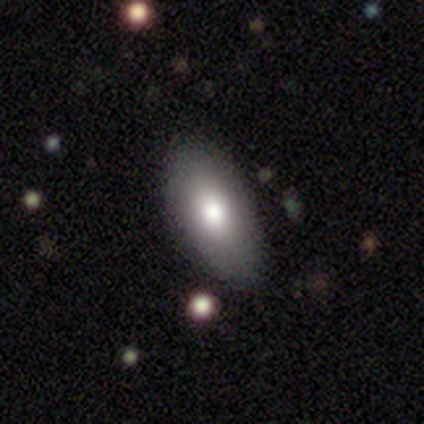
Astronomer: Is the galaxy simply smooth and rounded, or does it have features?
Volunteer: smooth — 100%.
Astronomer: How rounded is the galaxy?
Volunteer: in between — 100%.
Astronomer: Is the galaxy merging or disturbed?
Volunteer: none — 86%.